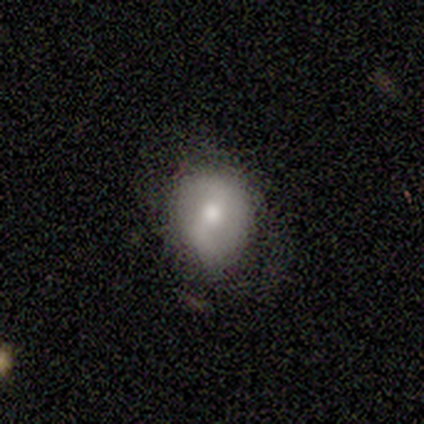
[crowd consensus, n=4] Smooth or featured?
  - smooth: 50% *
  - featured or disk: 25%
  - star or artifact: 25%
How rounded?
  - round: 50% * (tied)
  - in between: 50% * (tied)
  - cigar-shaped: 0%
Merging?
  - none: 33% * (tied)
  - minor disturbance: 33% * (tied)
  - major disturbance: 33% * (tied)
  - merger: 0%